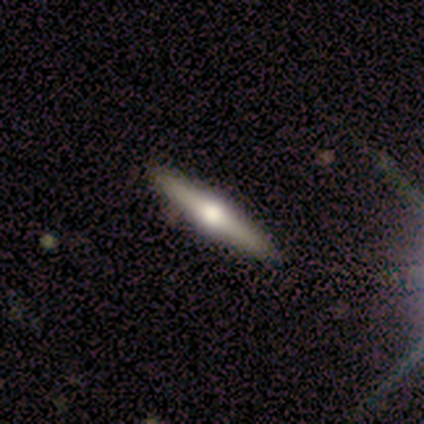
This appears to be a featured or disk galaxy (80%) viewed edge-on (100%) with a rounded central bulge (100%). Merging: none (100%).